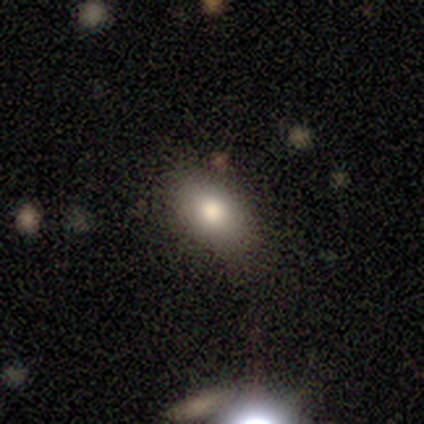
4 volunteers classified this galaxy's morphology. Overall: smooth (50%, tied with star or artifact). How rounded: in between (100%). Merging: none (50%, tied with minor disturbance).